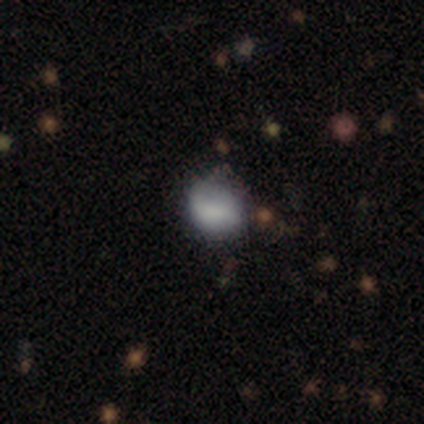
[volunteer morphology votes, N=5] This appears to be a smooth galaxy with no disk features (60%) that is round (67%). Merging: none (80%).